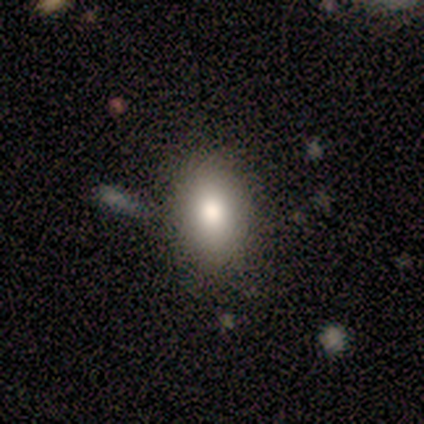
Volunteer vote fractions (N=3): A smooth galaxy with no disk features (67%) that is in between round and cigar-shaped (100%).

Vote fractions:
- Smooth or featured? smooth: 67% / star or artifact: 33% / featured or disk: 0%
- How rounded? in between: 100% / round: 0% / cigar-shaped: 0%
- Merging? none: 100% / minor disturbance: 0% / major disturbance: 0% / merger: 0%